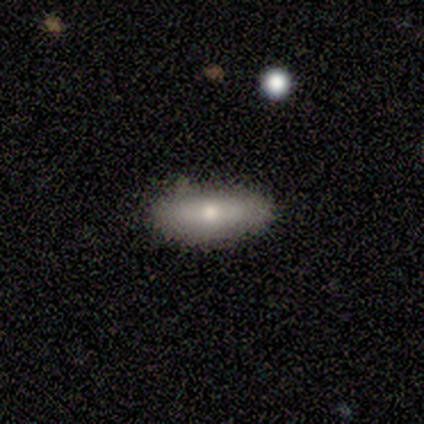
Q: Smooth or featured?
A: smooth (90%); runner-up: featured or disk (10%)
Q: How rounded?
A: in between (78%); runner-up: cigar-shaped (22%)
Q: Merging?
A: none (100%)